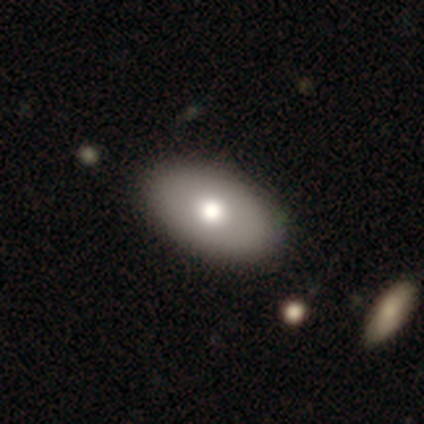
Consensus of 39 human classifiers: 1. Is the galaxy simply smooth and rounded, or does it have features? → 77% smooth, 13% star or artifact, 10% featured or disk.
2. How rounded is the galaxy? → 97% in between, 3% round, 0% cigar-shaped.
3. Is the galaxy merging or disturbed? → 91% none, 6% minor disturbance, 3% major disturbance, 0% merger.